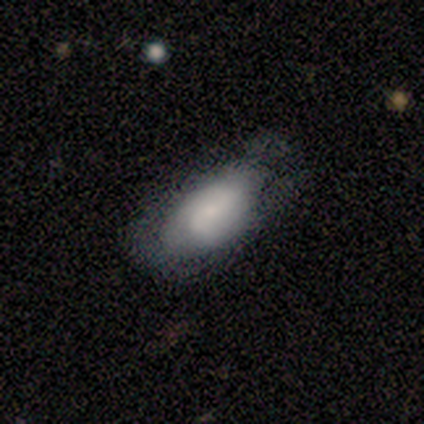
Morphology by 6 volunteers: smooth_or_featured: smooth (p=0.83) [alt: featured or disk p=0.17]
how_rounded: in between (p=0.80) [alt: cigar-shaped p=0.20]
merging: none (p=0.50) [tied with: minor disturbance p=0.50]